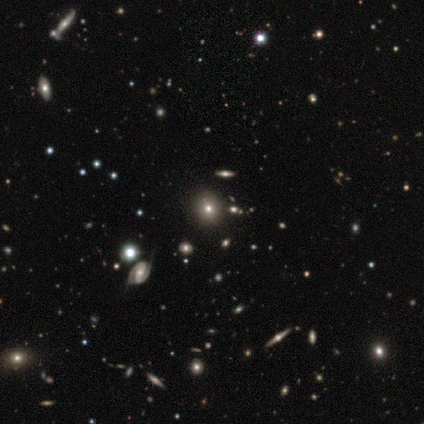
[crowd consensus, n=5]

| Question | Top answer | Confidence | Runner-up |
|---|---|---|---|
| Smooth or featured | smooth | 80% | star or artifact (20%) |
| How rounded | round | 100% | — |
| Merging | none | 75% | minor disturbance (25%) |